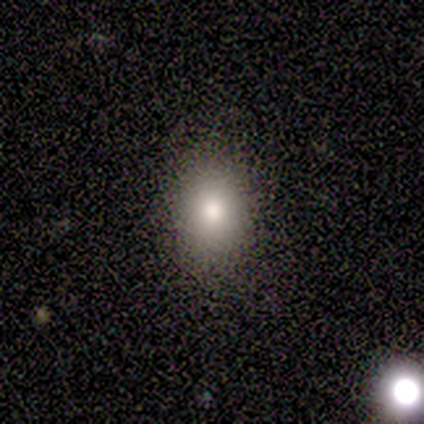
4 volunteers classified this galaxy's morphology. A smooth galaxy with no disk features (75%) that is in between round and cigar-shaped (100%). Merging: none (100%).